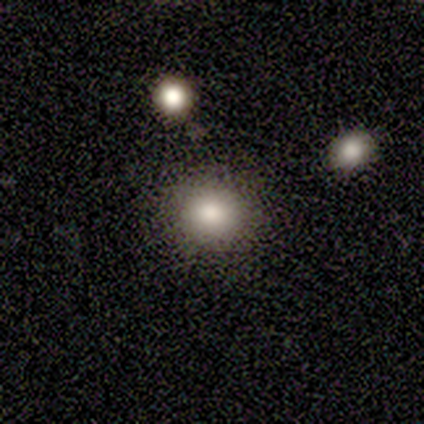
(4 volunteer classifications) Q: Smooth or featured?
A: smooth (100%)
Q: How rounded?
A: round (100%)
Q: Merging?
A: none (75%); runner-up: merger (25%)